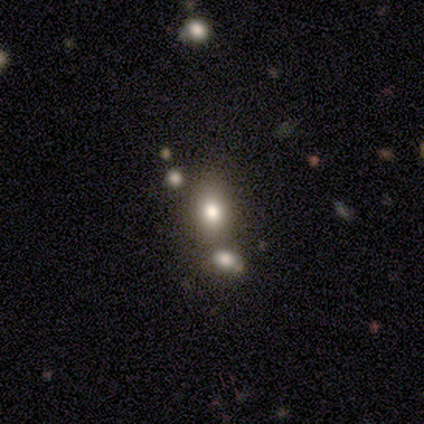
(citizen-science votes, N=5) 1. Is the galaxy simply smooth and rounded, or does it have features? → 60% smooth, 40% star or artifact, 0% featured or disk.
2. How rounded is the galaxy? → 67% in between, 33% round, 0% cigar-shaped.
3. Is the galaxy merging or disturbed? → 67% none, 33% merger, 0% minor disturbance, 0% major disturbance.